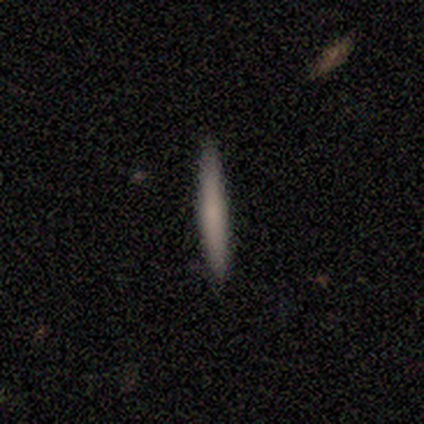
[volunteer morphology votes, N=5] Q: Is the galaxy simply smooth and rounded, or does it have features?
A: smooth — 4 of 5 (80%).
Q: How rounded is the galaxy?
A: cigar-shaped — 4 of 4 (100%).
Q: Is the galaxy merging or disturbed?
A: none — 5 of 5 (100%).